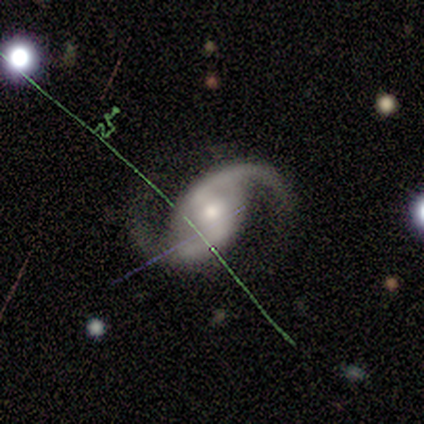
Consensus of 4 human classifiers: A featured or disk galaxy (100%) with a weak bar (75%), 2 (100%) medium (50%, tied with loose) spiral arms (100%) and a small central bulge (75%). Merging: none (100%).